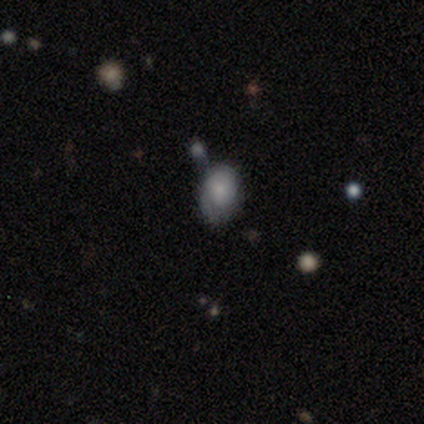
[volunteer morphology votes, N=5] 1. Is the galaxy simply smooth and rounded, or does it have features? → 80% smooth, 20% featured or disk, 0% star or artifact.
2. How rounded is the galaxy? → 75% in between, 25% round, 0% cigar-shaped.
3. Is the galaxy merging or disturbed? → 80% none, 20% merger, 0% minor disturbance, 0% major disturbance.